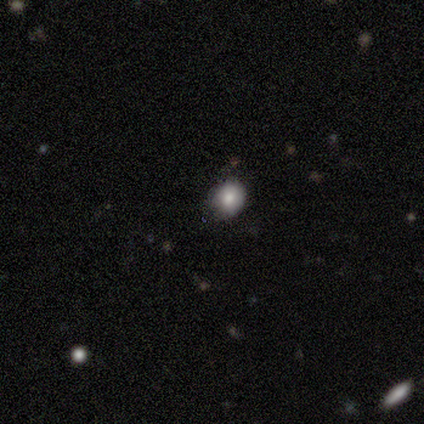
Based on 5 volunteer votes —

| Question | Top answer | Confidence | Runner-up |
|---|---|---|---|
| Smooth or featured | smooth | 60% | star or artifact (40%) |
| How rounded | round | 67% | in between (33%) |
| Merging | none | 33% | tied: minor disturbance (33%), major disturbance (33%) |